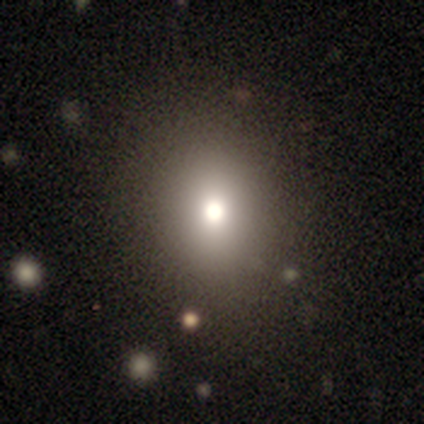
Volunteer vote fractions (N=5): Smooth or featured? 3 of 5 (60%) said smooth. How rounded? 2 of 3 (67%) said round. Merging? 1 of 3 (33%, tied with minor disturbance and major disturbance) said none.